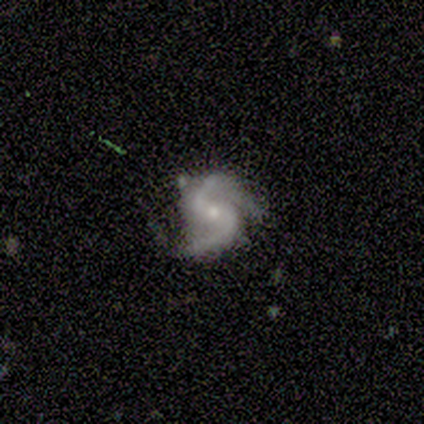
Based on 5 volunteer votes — Volunteers were most divided on "spiral winding": loose: 60%, medium: 40%, tight: 0%. More confident: smooth or featured — featured or disk (100%); edge-on disk — no (100%); spiral arms — yes (100%); merging — none (80%); bulge size — small (60%); bar — no (60%); spiral arm count — 2 (60%).